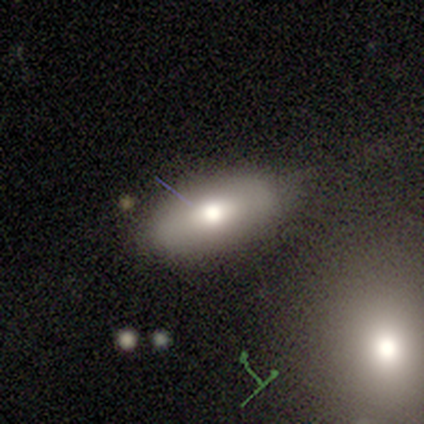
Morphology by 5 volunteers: Overall: smooth (60%; featured or disk 40%). How rounded: in between (100%). Merging: none (60%; minor disturbance 40%).